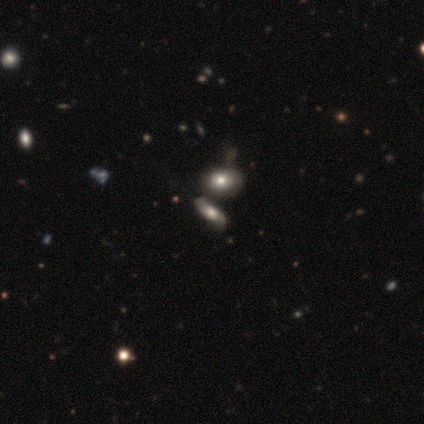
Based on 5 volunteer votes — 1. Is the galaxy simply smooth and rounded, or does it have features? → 100% smooth, 0% featured or disk, 0% star or artifact.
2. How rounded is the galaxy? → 80% in between, 20% cigar-shaped, 0% round.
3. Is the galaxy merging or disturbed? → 40% none, 20% minor disturbance, 20% major disturbance, 20% merger.